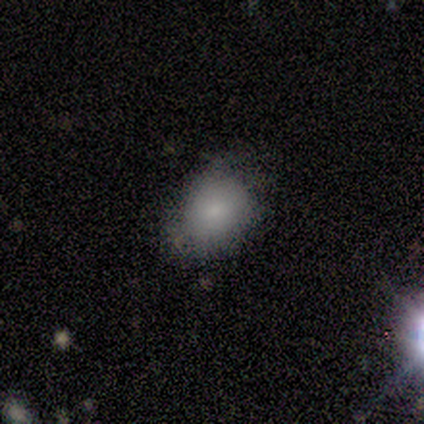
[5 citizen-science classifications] smooth-or-featured: smooth: 80% | featured or disk: 20% | star or artifact: 0%
  how-rounded: in between: 75% | round: 25% | cigar-shaped: 0%
  merging: none: 40% (tied) | minor disturbance: 40% (tied) | major disturbance: 20% | merger: 0%